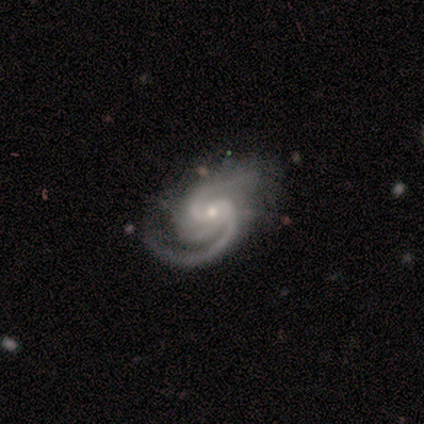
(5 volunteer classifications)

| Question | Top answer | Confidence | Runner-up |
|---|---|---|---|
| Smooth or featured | featured or disk | 60% | star or artifact (40%) |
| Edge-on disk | no | 100% | — |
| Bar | no | 67% | weak (33%) |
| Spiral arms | yes | 100% | — |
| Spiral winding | tight | 67% | medium (33%) |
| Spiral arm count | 2 | 67% | 3 (33%) |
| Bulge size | moderate | 67% | small (33%) |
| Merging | none | 67% | minor disturbance (33%) |